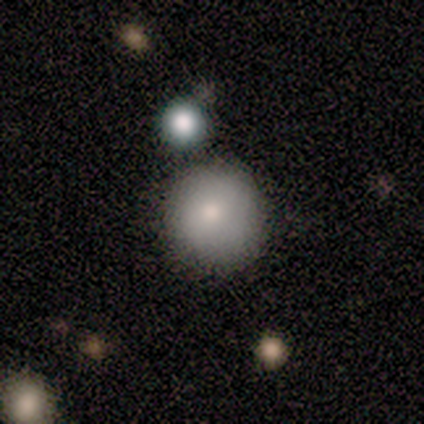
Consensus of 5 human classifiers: A featured or disk galaxy (60%) with no bar (100%), no spiral arms (100%) and a moderate central bulge (100%). Merging: none (100%).